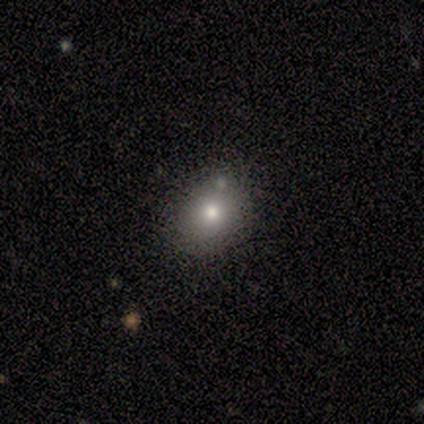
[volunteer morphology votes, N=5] Smooth or featured? smooth (60%)
How rounded? round (67%)
Merging? none (100%)